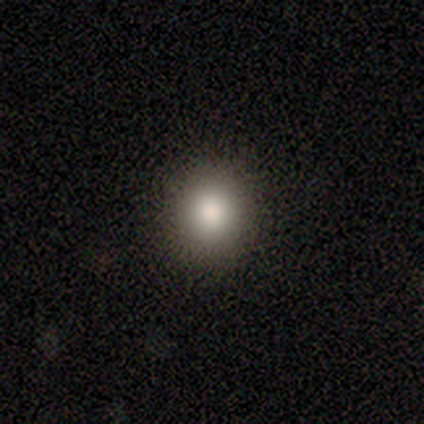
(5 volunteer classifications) This appears to be a smooth galaxy with no disk features (60%) that is round (100%). Merging: none (100%).